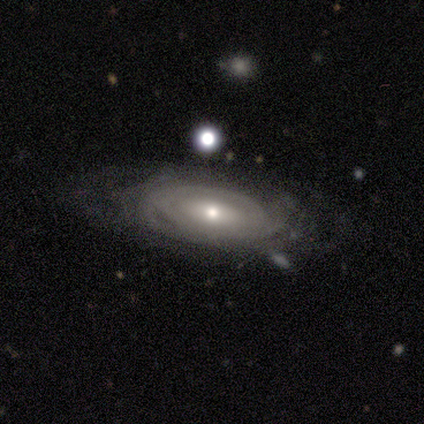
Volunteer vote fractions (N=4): Q: Smooth or featured?
A: featured or disk (100%)
Q: Edge-on disk?
A: no (75%); runner-up: yes (25%)
Q: Bar?
A: no (100%)
Q: Spiral arms?
A: yes (67%); runner-up: no (33%)
Q: Spiral winding?
A: tight (100%)
Q: Spiral arm count?
A: can't tell (100%)
Q: Bulge size?
A: moderate (67%); runner-up: dominant (33%)
Q: Merging?
A: none (75%); runner-up: minor disturbance (25%)